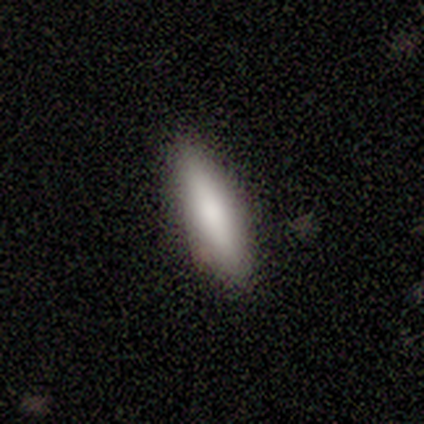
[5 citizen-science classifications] This is likely a smooth galaxy (60%). How rounded: likely cigar-shaped (67%). Merging: clearly none (100%).